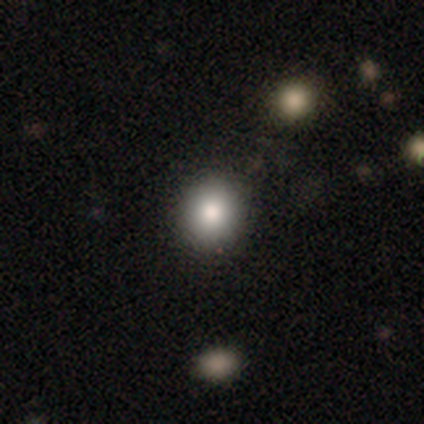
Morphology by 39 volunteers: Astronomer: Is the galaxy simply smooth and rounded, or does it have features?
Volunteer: smooth — 85%.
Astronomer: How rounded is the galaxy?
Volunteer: round — 85%.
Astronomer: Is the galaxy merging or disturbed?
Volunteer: none — 97%.